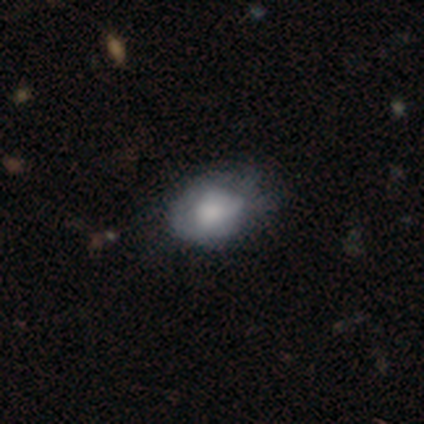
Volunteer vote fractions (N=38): Volunteers were most divided on "merging": minor disturbance: 41%, none: 27%, major disturbance: 11%, merger: 0%. More confident: smooth or featured — smooth (71%); how rounded — in between (63%).